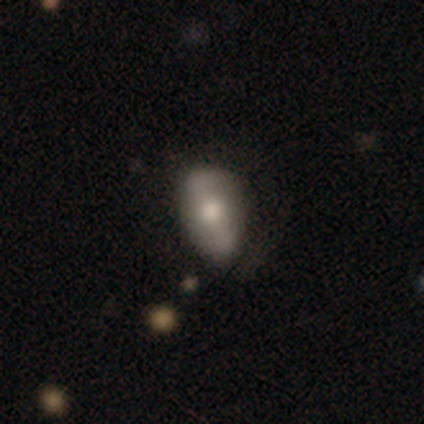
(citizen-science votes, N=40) A smooth galaxy with no disk features (50%) that is in between round and cigar-shaped (85%).

Vote fractions:
- Smooth or featured? smooth: 50% / featured or disk: 38% / star or artifact: 12%
- How rounded? in between: 85% / round: 15% / cigar-shaped: 0%
- Merging? none: 77% / minor disturbance: 11% / major disturbance: 11% / merger: 0%